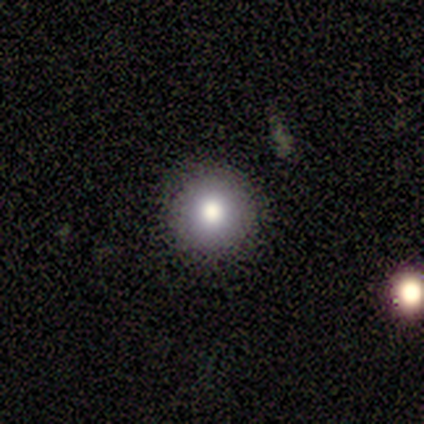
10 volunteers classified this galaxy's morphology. Smooth or featured?
  - smooth: 50% *
  - featured or disk: 30%
  - star or artifact: 20%
How rounded?
  - round: 100% *
  - in between: 0%
  - cigar-shaped: 0%
Merging?
  - none: 88% *
  - minor disturbance: 12%
  - major disturbance: 0%
  - merger: 0%